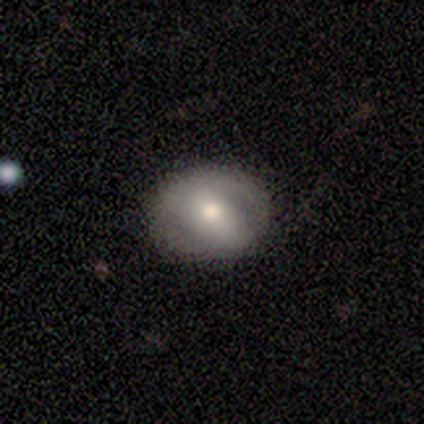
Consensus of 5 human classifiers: Q: Smooth or featured?
A: smooth (80%); runner-up: featured or disk (20%)
Q: How rounded?
A: in between (100%)
Q: Merging?
A: none (100%)